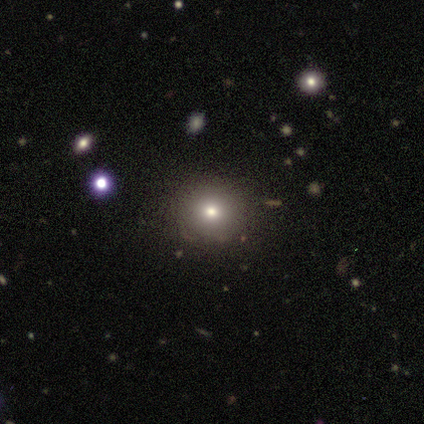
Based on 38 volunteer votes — smooth-or-featured: smooth: 55% | star or artifact: 24% | featured or disk: 21%
  how-rounded: round: 95% | in between: 5% | cigar-shaped: 0%
  merging: none: 79% | minor disturbance: 10% | major disturbance: 7% | merger: 3%